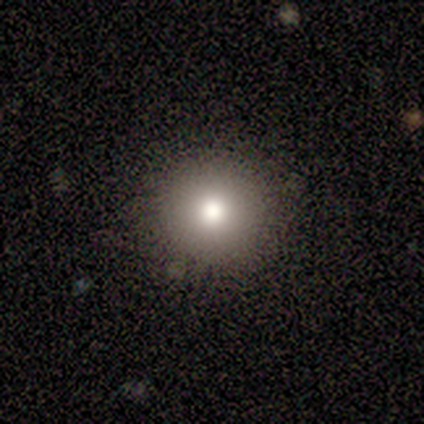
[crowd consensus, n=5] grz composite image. It shows a smooth galaxy with no disk features (100%) that is round (100%). Merging: none (100%).